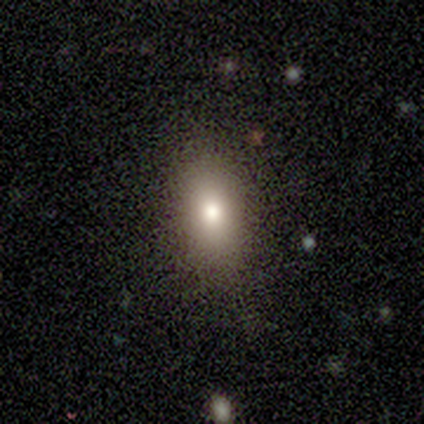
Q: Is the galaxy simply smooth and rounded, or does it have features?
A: smooth — 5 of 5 (100%).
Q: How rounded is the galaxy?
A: in between — 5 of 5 (100%).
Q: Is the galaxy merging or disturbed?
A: none — 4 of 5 (80%).